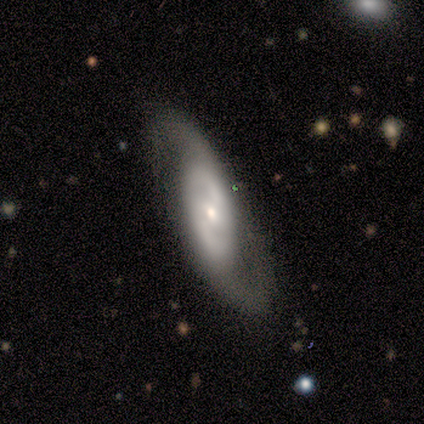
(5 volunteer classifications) Smooth or featured? featured or disk (100%)
Edge-on disk? no (100%)
Bar? no (60%)
Spiral arms? yes (100%)
Spiral winding? tight (40%, tied with loose)
Spiral arm count? 2 (80%)
Bulge size? small (100%)
Merging? none (100%)